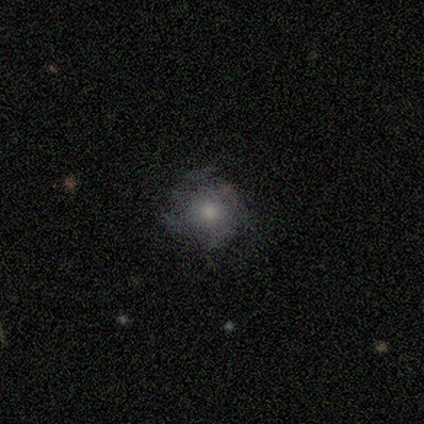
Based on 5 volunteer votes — Smooth or featured?
  - smooth: 80% *
  - featured or disk: 20%
  - star or artifact: 0%
How rounded?
  - round: 100% *
  - in between: 0%
  - cigar-shaped: 0%
Merging?
  - none: 80% *
  - major disturbance: 20%
  - minor disturbance: 0%
  - merger: 0%